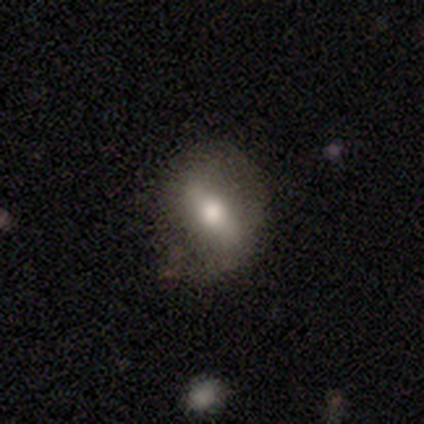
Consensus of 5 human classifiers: A featured or disk galaxy (60%) with a strong bar (100%), no spiral arms (100%) and a moderate central bulge (100%).

Vote fractions:
- Smooth or featured? featured or disk: 60% / smooth: 40% / star or artifact: 0%
- Edge-on disk? no: 67% / yes: 33%
- Bar? strong: 100% / weak: 0% / no: 0%
- Spiral arms? no: 100% / yes: 0%
- Bulge size? moderate: 100% / dominant: 0% / large: 0% / small: 0% / none: 0%
- Merging? none: 100% / minor disturbance: 0% / major disturbance: 0% / merger: 0%